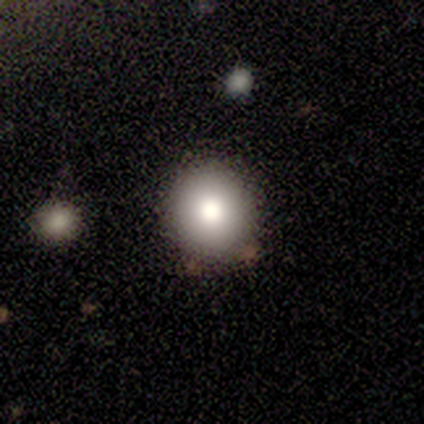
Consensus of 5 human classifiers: Smooth or featured: smooth — 80% (featured or disk — 20%)
How rounded: round — 100%
Merging: none — 100%